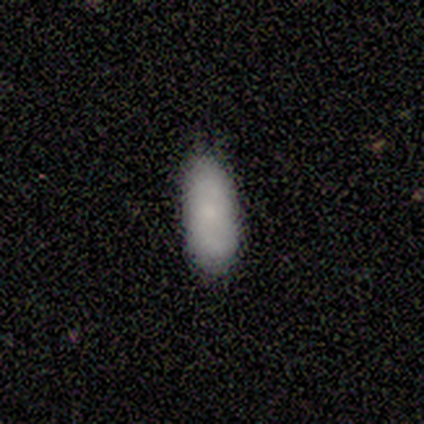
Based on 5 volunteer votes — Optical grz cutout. It shows a smooth galaxy with no disk features (100%) that is in between round and cigar-shaped (100%). Merging: none (80%).